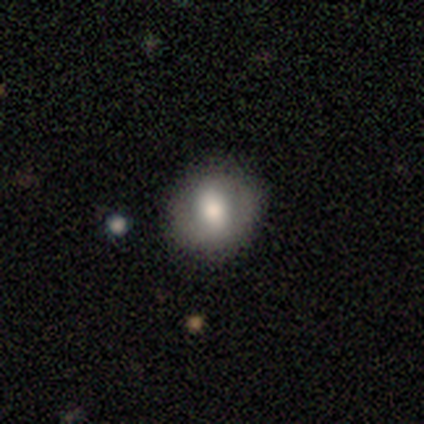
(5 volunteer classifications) Smooth or featured? 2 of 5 (40%, tied with featured or disk) said smooth. How rounded? 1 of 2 (50%, tied with in between) said round. Merging? 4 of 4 (100%) said none.